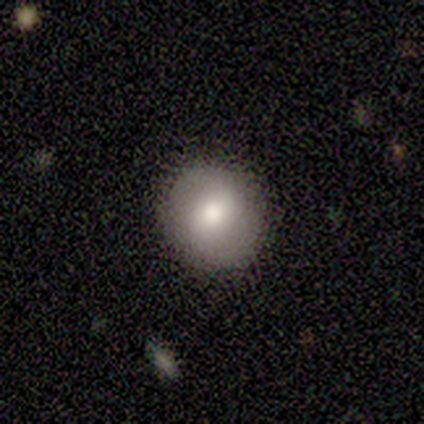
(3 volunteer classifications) smooth-or-featured: smooth: 67% | featured or disk: 33% | star or artifact: 0%
  how-rounded: round: 100% | in between: 0% | cigar-shaped: 0%
  merging: none: 100% | minor disturbance: 0% | major disturbance: 0% | merger: 0%